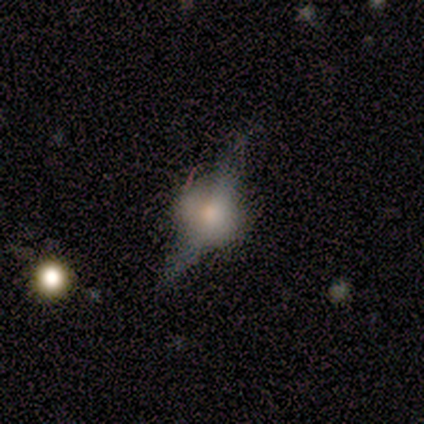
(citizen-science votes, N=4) A featured or disk galaxy (75%) with no bar (100%), no spiral arms (100%) and a moderate central bulge (50%, tied with none).

Vote fractions:
- Smooth or featured? featured or disk: 75% / smooth: 25% / star or artifact: 0%
- Edge-on disk? no: 67% / yes: 33%
- Bar? no: 100% / strong: 0% / weak: 0%
- Spiral arms? no: 100% / yes: 0%
- Bulge size? moderate: 50% (tied) / none: 50% (tied) / dominant: 0% / large: 0% / small: 0%
- Merging? major disturbance: 75% / none: 25% / minor disturbance: 0% / merger: 0%